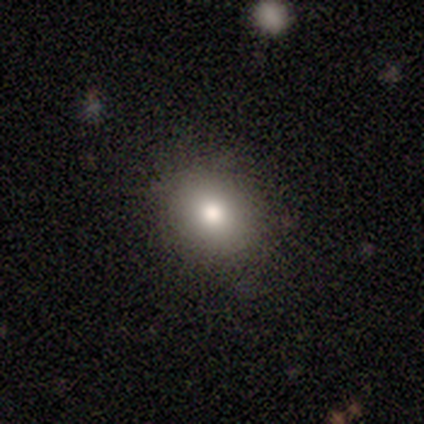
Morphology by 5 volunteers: Volunteers were most divided on "how rounded": round: 75%, in between: 25%, cigar-shaped: 0%. More confident: merging — none (100%); smooth or featured — smooth (80%).